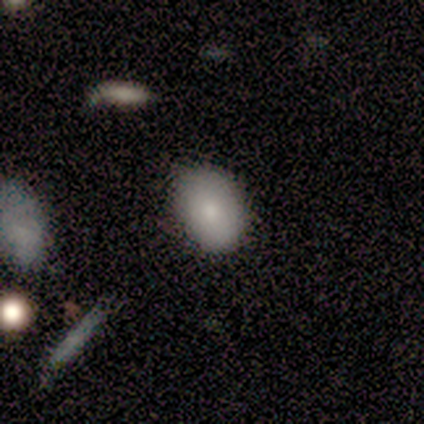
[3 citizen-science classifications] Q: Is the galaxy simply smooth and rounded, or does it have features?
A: smooth — 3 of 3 (100%).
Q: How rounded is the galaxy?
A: in between — 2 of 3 (67%).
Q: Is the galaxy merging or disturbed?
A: none — 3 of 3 (100%).